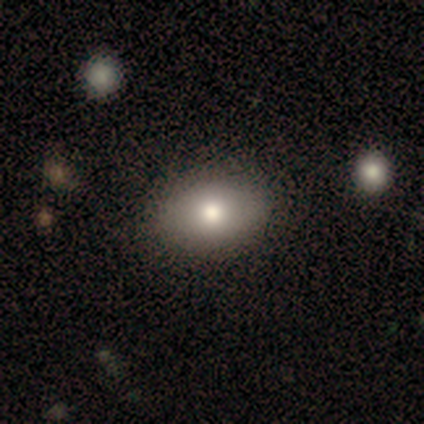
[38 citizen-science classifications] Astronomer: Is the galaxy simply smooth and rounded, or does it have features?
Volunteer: smooth — 76%.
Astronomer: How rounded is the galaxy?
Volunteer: in between — 93%.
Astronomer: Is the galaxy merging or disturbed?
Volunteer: none — 59%.